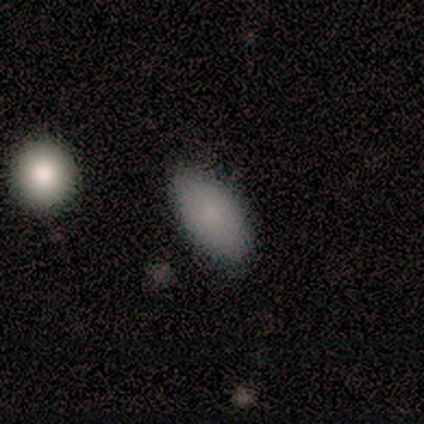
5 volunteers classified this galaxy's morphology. A smooth galaxy with no disk features (80%) that is in between round and cigar-shaped (100%). Merging: none (75%).